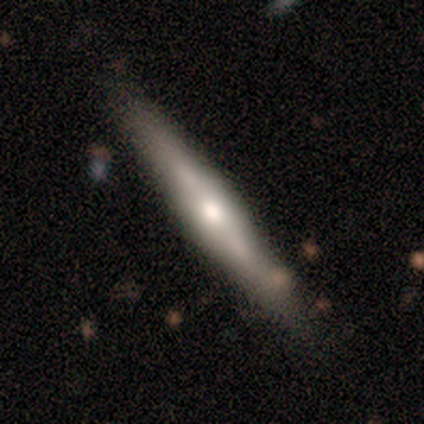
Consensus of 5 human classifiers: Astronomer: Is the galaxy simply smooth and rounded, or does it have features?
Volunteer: featured or disk — 60% (runner-up: smooth, 40%).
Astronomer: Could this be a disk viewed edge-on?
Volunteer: yes — 100%.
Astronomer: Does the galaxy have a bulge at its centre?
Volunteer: rounded — 67%.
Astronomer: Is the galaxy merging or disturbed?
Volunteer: none — 40%, tied with minor disturbance at 40%.